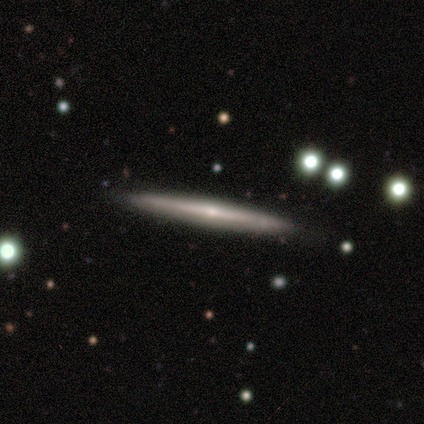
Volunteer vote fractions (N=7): Smooth or featured? featured or disk (71%)
Edge-on disk? yes (100%)
Edge-on bulge? none (60%)
Merging? none (100%)